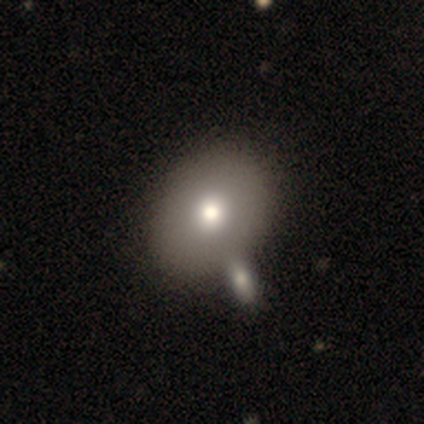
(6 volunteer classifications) A smooth galaxy with no disk features (83%) that is in between round and cigar-shaped (60%).

Vote fractions:
- Smooth or featured? smooth: 83% / featured or disk: 17% / star or artifact: 0%
- How rounded? in between: 60% / round: 40% / cigar-shaped: 0%
- Merging? none: 67% / minor disturbance: 17% / merger: 17% / major disturbance: 0%